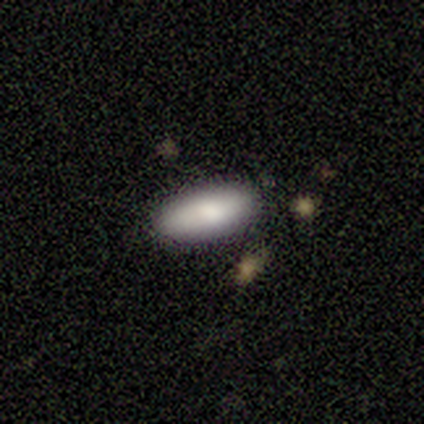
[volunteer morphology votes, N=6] Smooth or featured? smooth (83%)
How rounded? in between (100%)
Merging? none (100%)